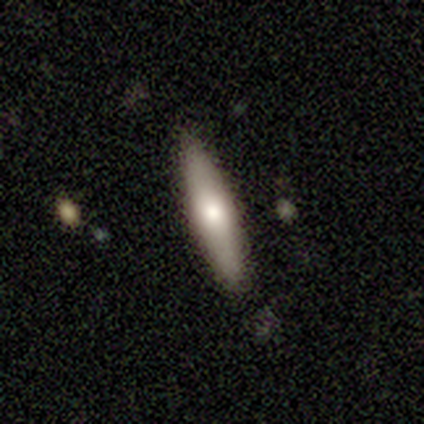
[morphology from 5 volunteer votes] Smooth or featured?
  - smooth: 60% *
  - featured or disk: 40%
  - star or artifact: 0%
How rounded?
  - cigar-shaped: 67% *
  - in between: 33%
  - round: 0%
Merging?
  - none: 100% *
  - minor disturbance: 0%
  - major disturbance: 0%
  - merger: 0%